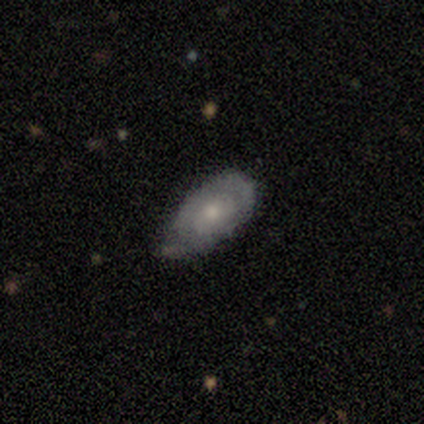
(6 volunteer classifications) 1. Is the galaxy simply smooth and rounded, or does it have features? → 50% smooth (tied), 50% featured or disk (tied), 0% star or artifact.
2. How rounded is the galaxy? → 100% in between, 0% round, 0% cigar-shaped.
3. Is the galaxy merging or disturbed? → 83% minor disturbance, 17% none, 0% major disturbance, 0% merger.